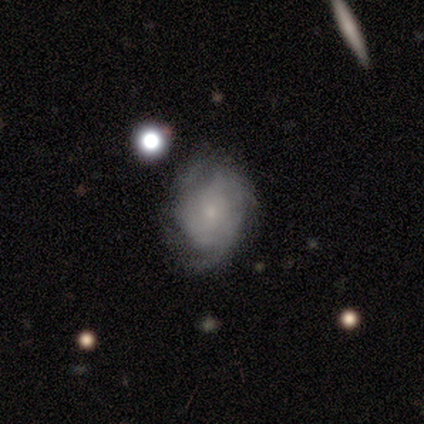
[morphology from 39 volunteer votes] smooth_or_featured: featured or disk (p=0.72) [alt: smooth p=0.23]
disk_edge_on: no (p=1.00)
bar: no (p=0.86) [alt: weak p=0.14]
has_spiral_arms: yes (p=0.82) [alt: no p=0.18]
spiral_winding: tight (p=0.48) [alt: medium p=0.30]
spiral_arm_count: can't tell (p=0.57) [alt: 2 p=0.22]
bulge_size: small (p=0.75) [alt: moderate p=0.11]
merging: none (p=0.59) [alt: minor disturbance p=0.24]